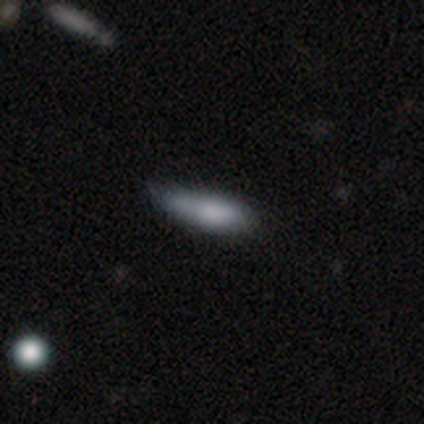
Smooth or featured?
  - smooth: 100% *
  - featured or disk: 0%
  - star or artifact: 0%
How rounded?
  - cigar-shaped: 75% *
  - in between: 25%
  - round: 0%
Merging?
  - none: 50% * (tied)
  - minor disturbance: 50% * (tied)
  - major disturbance: 0%
  - merger: 0%